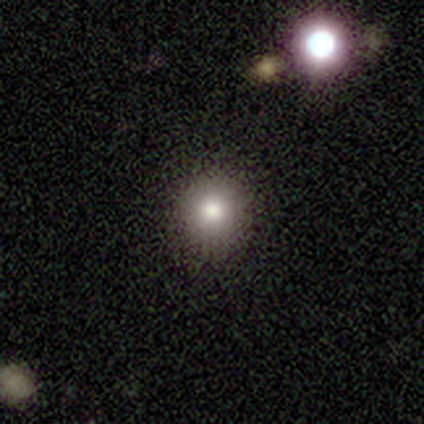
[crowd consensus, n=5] Overall: smooth (80%). How rounded: round (100%). Merging: none (100%).